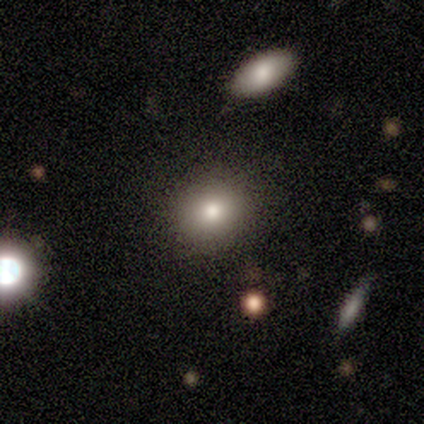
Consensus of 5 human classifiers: Smooth or featured: smooth — 60% (featured or disk — 40%)
How rounded: round — 67% (in between — 33%)
Merging: none — 100%